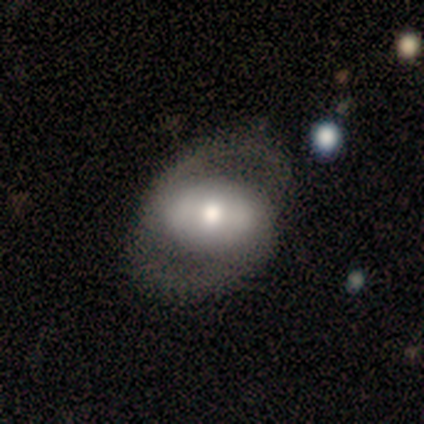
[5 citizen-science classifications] Volunteers were most divided on "merging": none: 60%, minor disturbance: 20%, major disturbance: 20%, merger: 0%. More confident: how rounded — in between (100%); smooth or featured — smooth (80%).